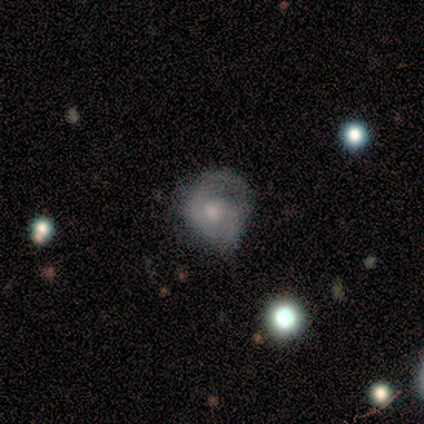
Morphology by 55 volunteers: A featured or disk galaxy (62%) with no bar (74%), 2 (90%) medium (43%) spiral arms (88%) and a moderate central bulge (59%). Merging: none (50%).